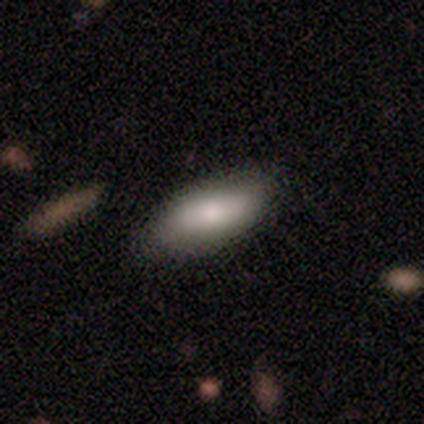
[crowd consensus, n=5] Smooth or featured? smooth (100%)
How rounded? in between (100%)
Merging? none (80%)